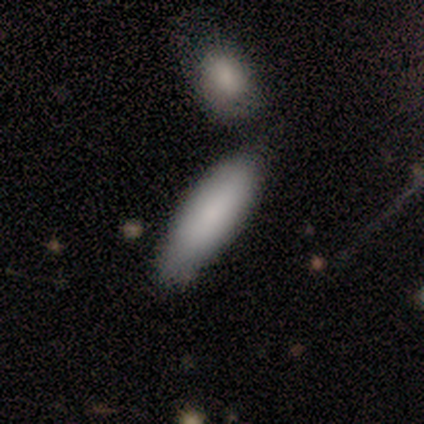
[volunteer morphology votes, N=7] type=smooth (86%); roundness=cigar-shaped (83%); merging=none (57%).